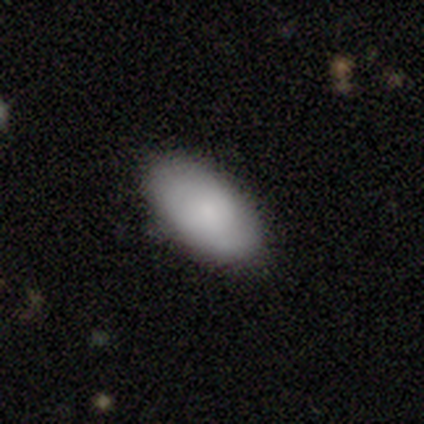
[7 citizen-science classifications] Smooth or featured? smooth (100%)
How rounded? in between (100%)
Merging? none (100%)